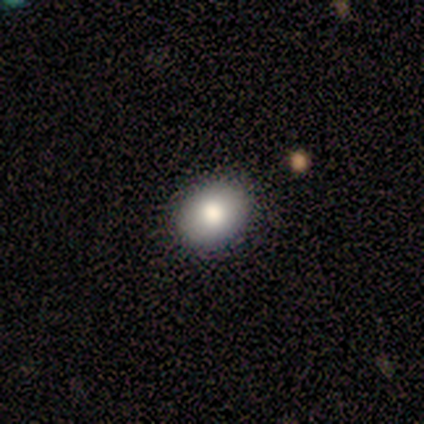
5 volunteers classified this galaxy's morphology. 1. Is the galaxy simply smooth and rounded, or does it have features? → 100% smooth, 0% featured or disk, 0% star or artifact.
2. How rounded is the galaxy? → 60% in between, 40% round, 0% cigar-shaped.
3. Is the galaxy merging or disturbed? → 80% none, 20% major disturbance, 0% minor disturbance, 0% merger.